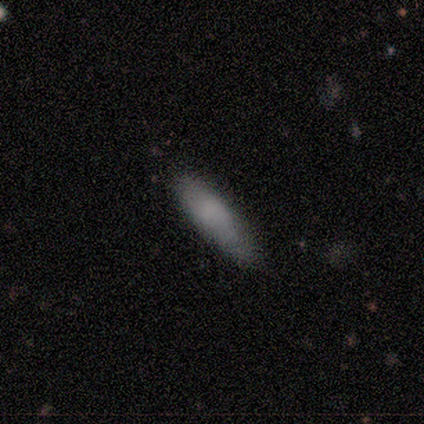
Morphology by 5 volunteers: Q: Smooth or featured?
A: smooth (100%)
Q: How rounded?
A: cigar-shaped (60%); runner-up: in between (40%)
Q: Merging?
A: none (80%); runner-up: minor disturbance (20%)